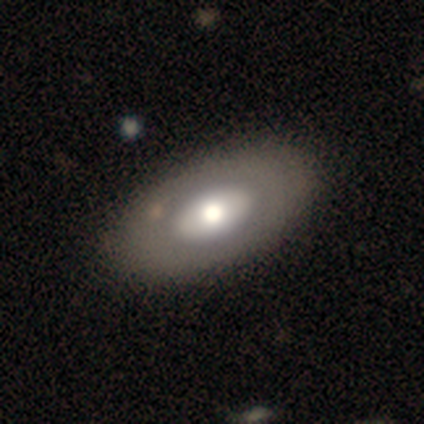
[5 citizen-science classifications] Smooth or featured? smooth (60%)
How rounded? in between (100%)
Merging? none (60%)